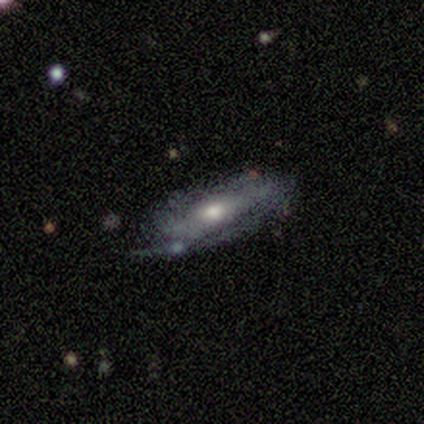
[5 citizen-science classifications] smooth-or-featured: smooth: 60% | featured or disk: 40% | star or artifact: 0%
  how-rounded: in between: 100% | round: 0% | cigar-shaped: 0%
  merging: none: 60% | minor disturbance: 20% | merger: 20% | major disturbance: 0%